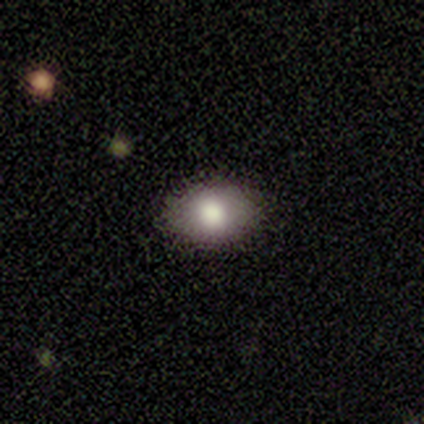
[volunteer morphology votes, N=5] Q: Smooth or featured?
A: smooth (80%); runner-up: star or artifact (20%)
Q: How rounded?
A: round (50%); tied with: in between (50%)
Q: Merging?
A: none (100%)